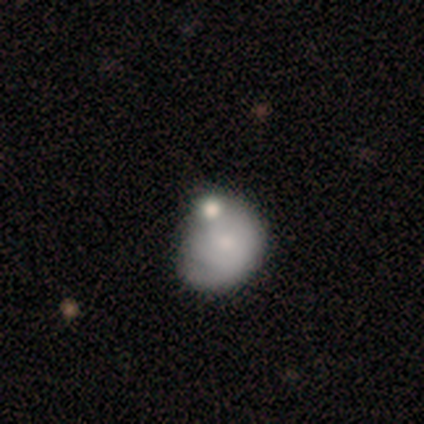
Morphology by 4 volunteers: Smooth or featured? 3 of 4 (75%) said smooth. How rounded? 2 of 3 (67%) said round. Merging? 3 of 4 (75%) said minor disturbance.